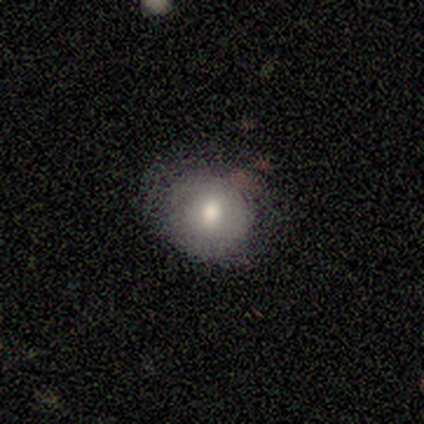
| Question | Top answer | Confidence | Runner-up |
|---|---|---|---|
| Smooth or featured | smooth | 100% | — |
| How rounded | round | 75% | in between (25%) |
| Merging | none | 50% | tied: minor disturbance (50%) |